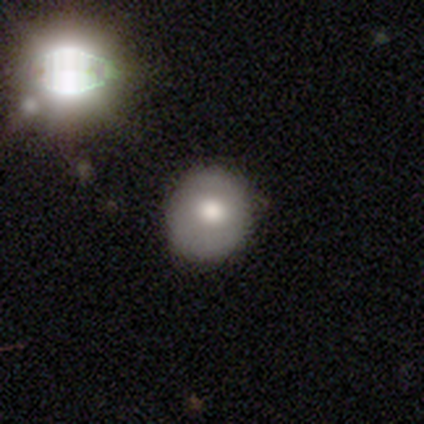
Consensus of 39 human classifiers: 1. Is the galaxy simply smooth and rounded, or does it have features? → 72% smooth, 23% featured or disk, 5% star or artifact.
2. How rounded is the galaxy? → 82% round, 18% in between, 0% cigar-shaped.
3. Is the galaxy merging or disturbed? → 54% none, 11% minor disturbance, 5% major disturbance, 0% merger.